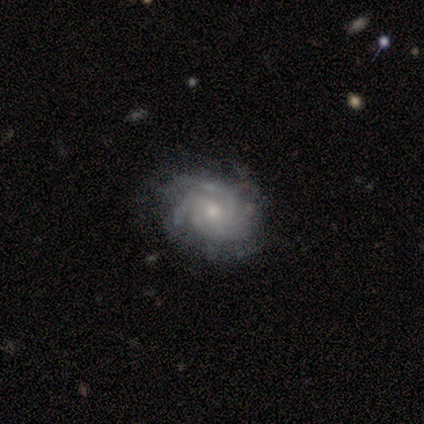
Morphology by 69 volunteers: This is likely a featured or disk galaxy (77%). It is clearly not viewed edge-on (96%). Bar: likely no (78%). Spiral arm pattern: clearly yes (96%). Spiral arm count: marginally 3 (35%). Spiral winding: possibly tight (57%). Central bulge: possibly moderate (47%). Merging: likely none (73%).